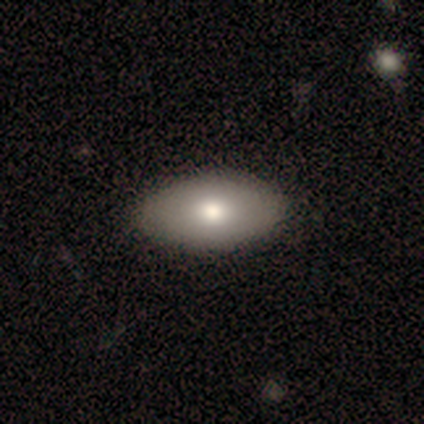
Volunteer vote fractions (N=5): smooth_or_featured: smooth (p=1.00)
how_rounded: in between (p=1.00)
merging: none (p=1.00)